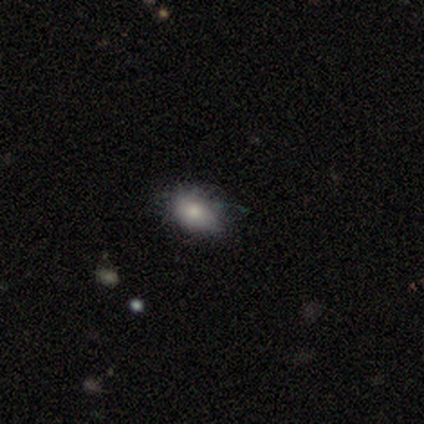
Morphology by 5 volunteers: A smooth galaxy with no disk features (60%) that is in between round and cigar-shaped (100%).

Vote fractions:
- Smooth or featured? smooth: 60% / featured or disk: 20% / star or artifact: 20%
- How rounded? in between: 100% / round: 0% / cigar-shaped: 0%
- Merging? none: 50% (tied) / minor disturbance: 50% (tied) / major disturbance: 0% / merger: 0%